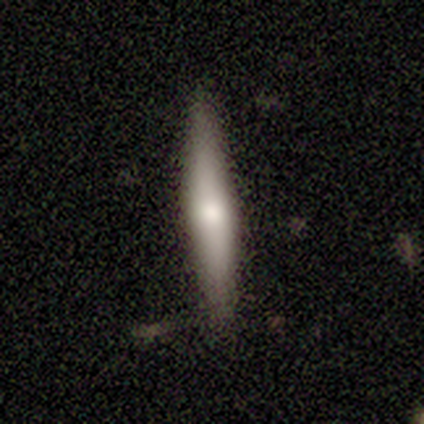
Smooth or featured: smooth — 60% (featured or disk — 40%)
How rounded: cigar-shaped — 67% (in between — 33%)
Merging: none — 80% (minor disturbance — 20%)